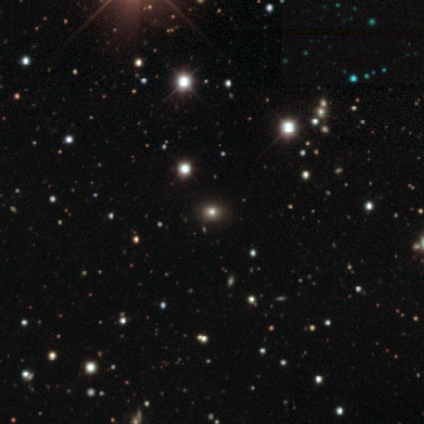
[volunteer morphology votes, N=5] This appears to be a smooth galaxy with no disk features (40%, tied with star or artifact) that is in between round and cigar-shaped (100%). Merging: none (67%).